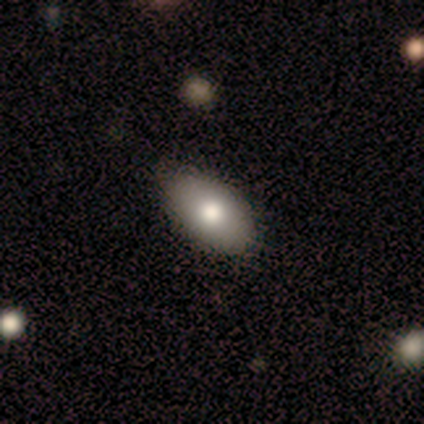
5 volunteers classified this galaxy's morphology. type=smooth (100%); roundness=in between (100%); merging=none (100%).